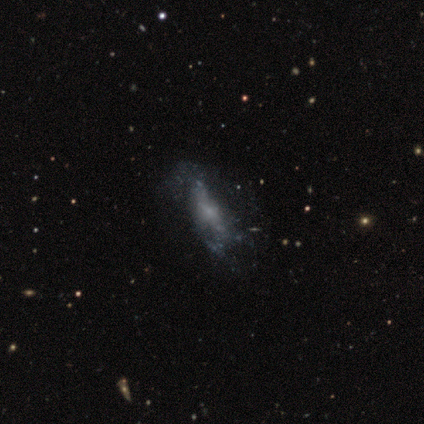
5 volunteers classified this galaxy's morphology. This is likely a featured or disk galaxy (60%). It is clearly not viewed edge-on (100%). Bar: likely no (67%). Spiral arm pattern: likely no (67%). Central bulge: marginally large (33%, tied with moderate and small). Merging: likely none (67%).